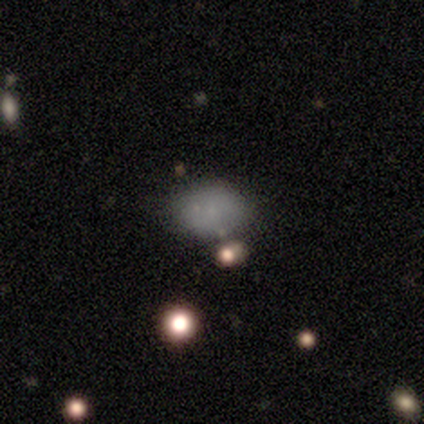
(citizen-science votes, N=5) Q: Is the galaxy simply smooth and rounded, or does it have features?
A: smooth — 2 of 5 (40%, tied with star or artifact).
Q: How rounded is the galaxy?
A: round — 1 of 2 (50%, tied with in between).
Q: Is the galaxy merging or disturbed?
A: none — 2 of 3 (67%).